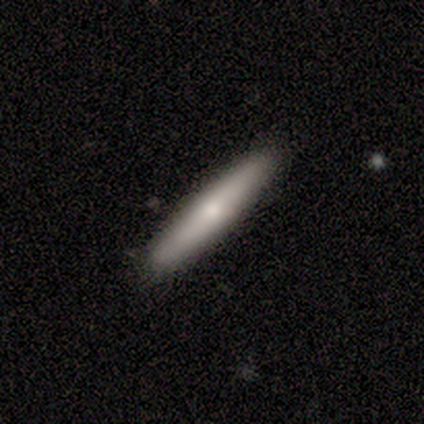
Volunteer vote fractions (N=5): Smooth or featured?
  - smooth: 80% *
  - featured or disk: 20%
  - star or artifact: 0%
How rounded?
  - in between: 50% *
  - round: 25%
  - cigar-shaped: 25%
Merging?
  - none: 60% *
  - minor disturbance: 40%
  - major disturbance: 0%
  - merger: 0%